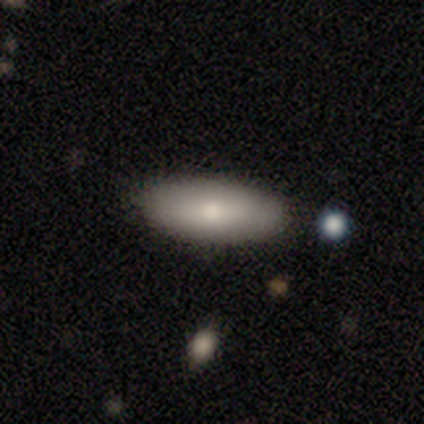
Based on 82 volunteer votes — Smooth or featured? smooth (87%)
How rounded? in between (82%)
Merging? none (91%)